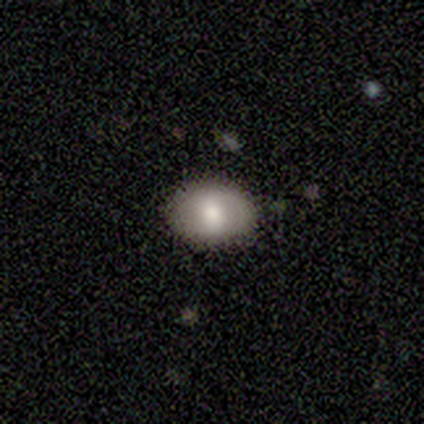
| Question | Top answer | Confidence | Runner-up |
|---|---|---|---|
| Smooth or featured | smooth | 80% | featured or disk (20%) |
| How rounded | round | 50% | tied: in between (50%) |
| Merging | none | 80% | minor disturbance (20%) |